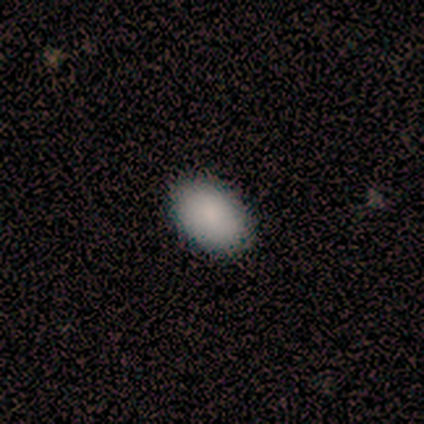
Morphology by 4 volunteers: Smooth or featured? smooth (75%)
How rounded? in between (100%)
Merging? none (100%)